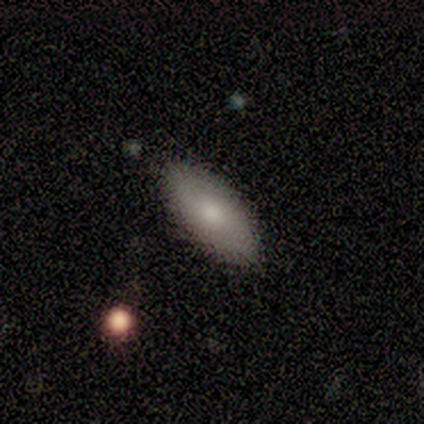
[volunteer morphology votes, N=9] Smooth or featured? smooth (78%)
How rounded? in between (86%)
Merging? none (100%)